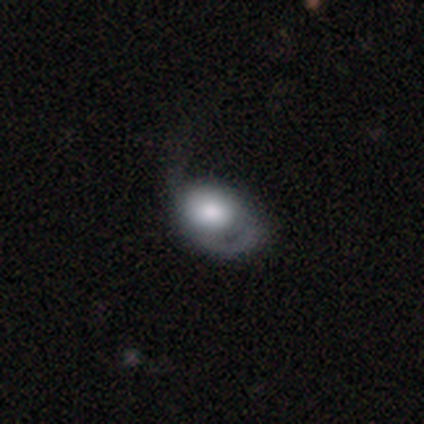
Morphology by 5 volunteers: Smooth or featured? 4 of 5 (80%) said smooth. How rounded? 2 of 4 (50%, tied with in between) said round. Merging? 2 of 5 (40%, tied with major disturbance) said minor disturbance.